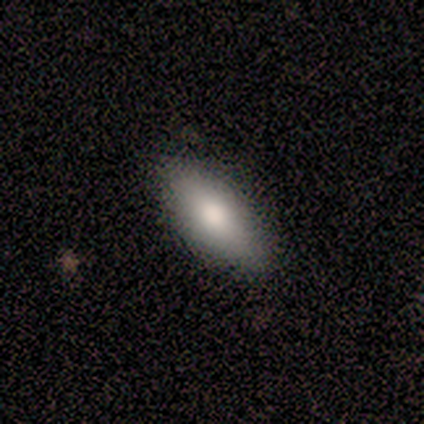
Q: Smooth or featured?
A: smooth (100%)
Q: How rounded?
A: in between (100%)
Q: Merging?
A: none (100%)